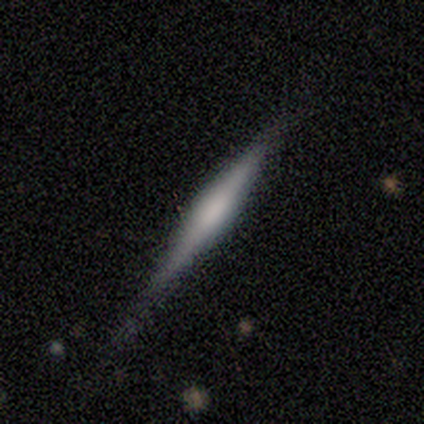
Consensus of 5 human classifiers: Smooth or featured: featured or disk — 60% (smooth — 40%)
Edge-on disk: yes — 100%
Edge-on bulge: none — 67% (boxy — 33%)
Merging: none — 80% (minor disturbance — 20%)